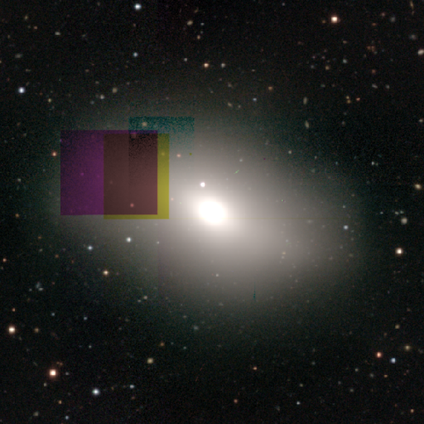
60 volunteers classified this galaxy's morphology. Volunteers were most divided on "smooth or featured": smooth: 55%, star or artifact: 25%, featured or disk: 20%. More confident: how rounded — in between (79%); merging — none (73%).